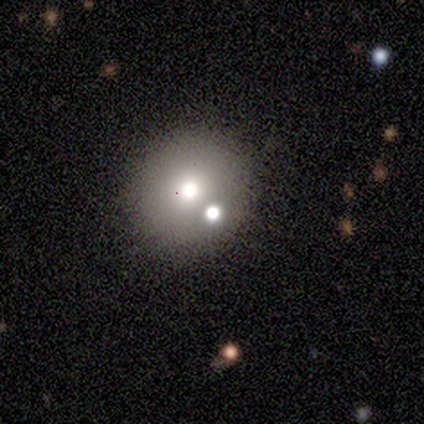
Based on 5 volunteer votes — Smooth or featured? 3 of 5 (60%) said smooth. How rounded? 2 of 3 (67%) said round. Merging? 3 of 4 (75%) said none.